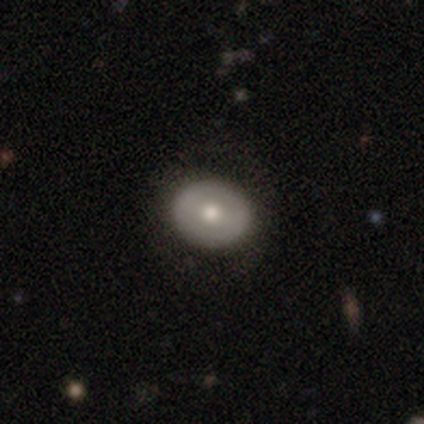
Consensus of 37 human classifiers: Smooth or featured? 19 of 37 (51%) said smooth. How rounded? 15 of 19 (79%) said round. Merging? 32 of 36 (89%) said none.